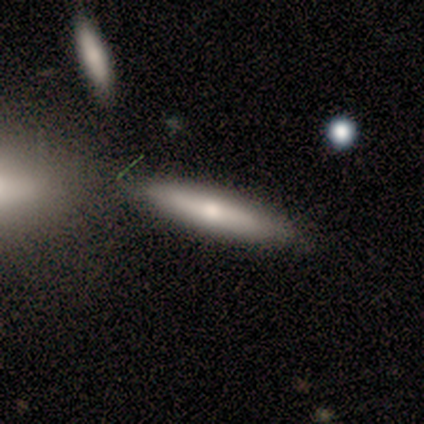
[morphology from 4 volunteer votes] Q: Smooth or featured?
A: smooth (50%); tied with: featured or disk (50%)
Q: How rounded?
A: in between (50%); tied with: cigar-shaped (50%)
Q: Merging?
A: none (75%); runner-up: minor disturbance (25%)